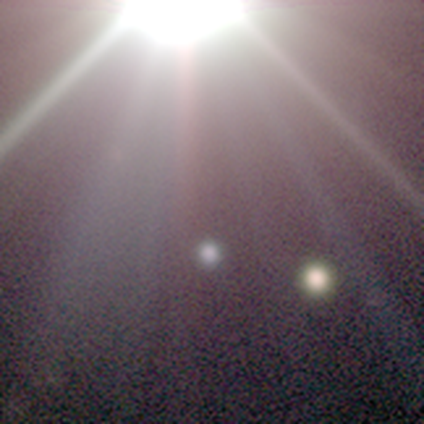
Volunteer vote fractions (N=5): Q: Smooth or featured?
A: star or artifact (80%); runner-up: smooth (20%)